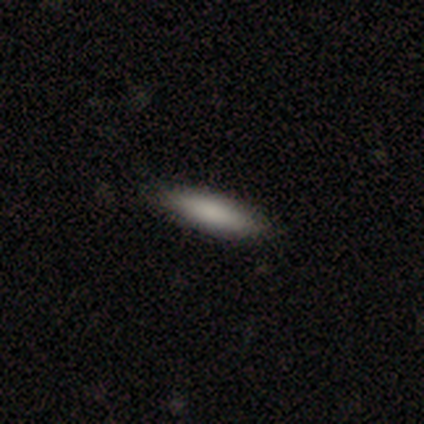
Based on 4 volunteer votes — Overall: smooth (100%). How rounded: in between (50%, tied with cigar-shaped). Merging: none (100%).